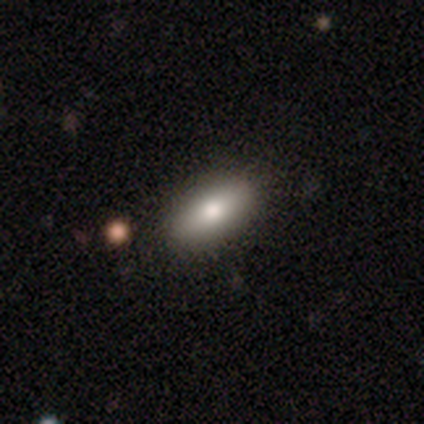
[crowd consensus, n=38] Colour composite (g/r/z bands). It shows a smooth galaxy with no disk features (82%) that is in between round and cigar-shaped (84%). Merging: none (66%).